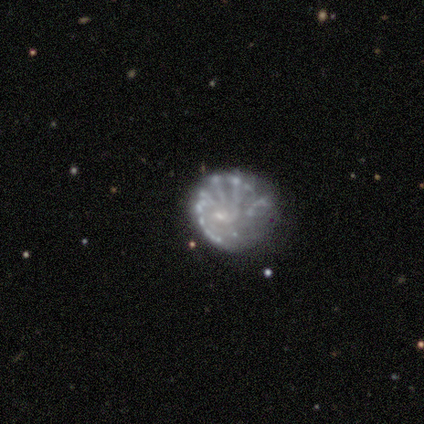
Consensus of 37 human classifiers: A featured or disk galaxy (92%) with no bar (71%), more than 4 (61%) tight (50%) spiral arms (53%) and a small central bulge (59%). Merging: none (40%).